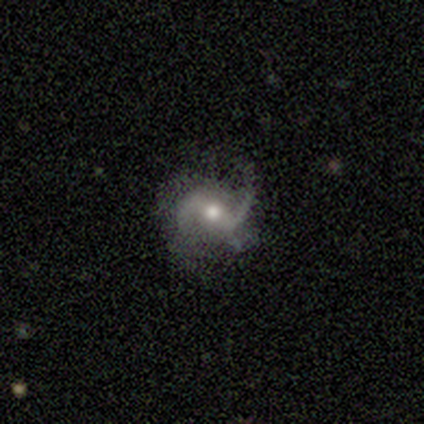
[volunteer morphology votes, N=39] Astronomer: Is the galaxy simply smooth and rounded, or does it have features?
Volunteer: featured or disk — 85%.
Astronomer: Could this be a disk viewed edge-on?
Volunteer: no — 100%.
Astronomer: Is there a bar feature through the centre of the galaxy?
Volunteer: weak — 48% (runner-up: strong, 33%).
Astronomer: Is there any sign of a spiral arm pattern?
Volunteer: yes — 91%.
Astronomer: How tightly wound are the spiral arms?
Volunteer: loose — 67%.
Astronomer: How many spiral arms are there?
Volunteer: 2 — 70%.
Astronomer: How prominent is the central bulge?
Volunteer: moderate — 79%.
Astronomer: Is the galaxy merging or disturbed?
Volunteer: none — 67%.